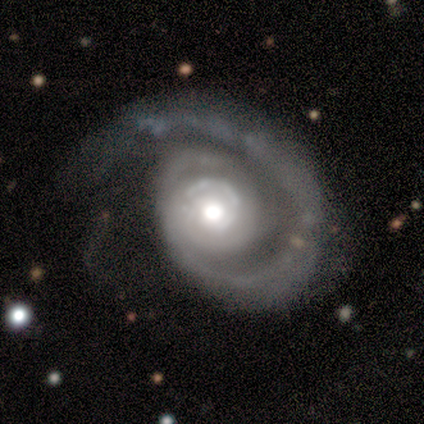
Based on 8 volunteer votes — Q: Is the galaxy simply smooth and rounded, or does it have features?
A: featured or disk — 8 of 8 (100%).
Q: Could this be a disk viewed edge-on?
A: no — 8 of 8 (100%).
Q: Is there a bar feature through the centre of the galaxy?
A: no — 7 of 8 (88%).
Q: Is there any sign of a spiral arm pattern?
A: yes — 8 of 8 (100%).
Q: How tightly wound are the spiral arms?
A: tight — 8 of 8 (100%).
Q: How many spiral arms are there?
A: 1 — 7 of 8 (88%).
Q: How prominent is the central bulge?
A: moderate — 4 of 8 (50%).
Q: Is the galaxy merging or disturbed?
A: none — 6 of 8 (75%).